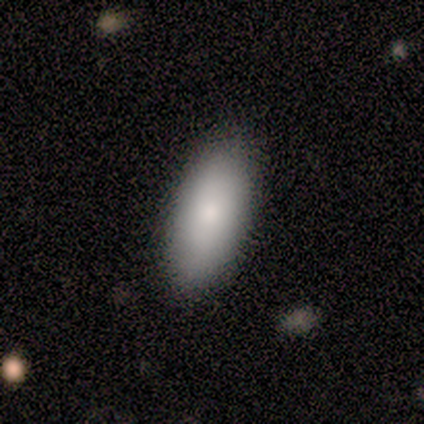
Morphology: type=smooth (75%); roundness=in between (100%); merging=none (100%).